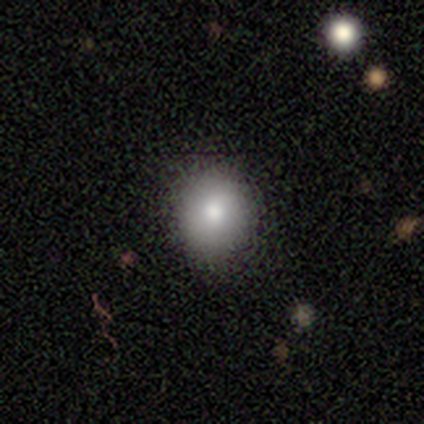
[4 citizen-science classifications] Smooth or featured? smooth (75%)
How rounded? in between (67%)
Merging? none (100%)